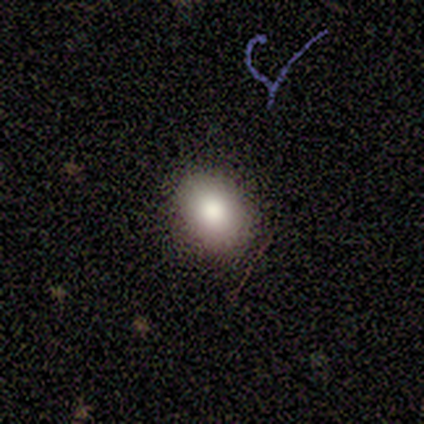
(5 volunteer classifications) Smooth or featured? smooth (80%)
How rounded? in between (75%)
Merging? none (100%)